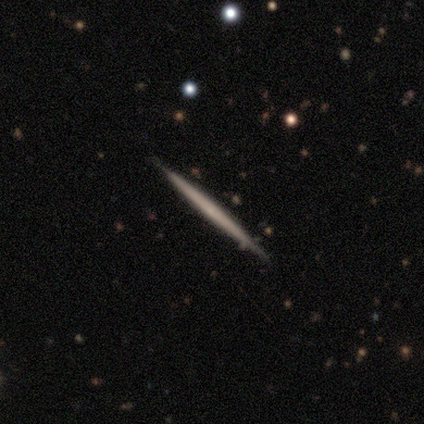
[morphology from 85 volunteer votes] Volunteers were most divided on "smooth or featured": featured or disk: 61%, smooth: 33%, star or artifact: 6%. More confident: edge-on disk — yes (100%); edge-on bulge — none (92%); merging — none (90%).